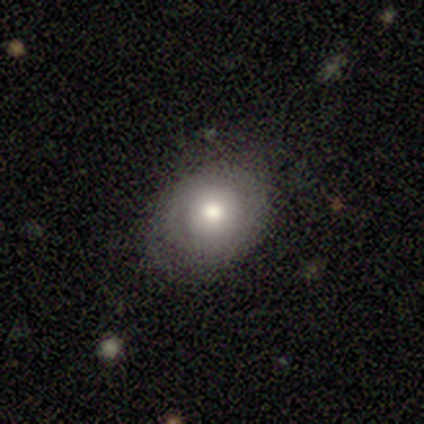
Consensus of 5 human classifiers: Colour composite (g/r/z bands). It shows a smooth galaxy with no disk features (100%) that is round (100%). Merging: none (100%).